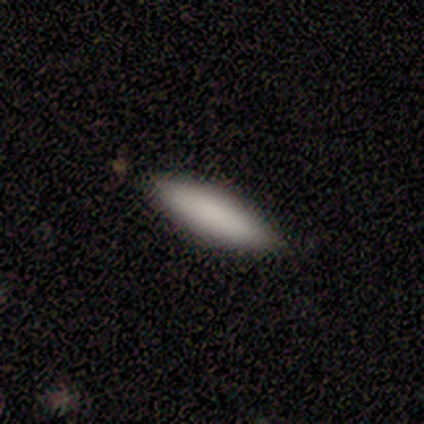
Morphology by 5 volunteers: Overall: smooth (80%). How rounded: in between (50%, tied with cigar-shaped). Merging: none (100%).